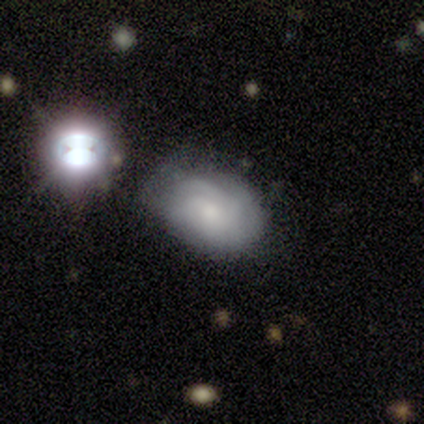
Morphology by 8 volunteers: smooth-or-featured: featured or disk: 62% | smooth: 25% | star or artifact: 12%
  disk-edge-on: no: 100% | yes: 0%
    bar: no: 80% | weak: 20% | strong: 0%
    has-spiral-arms: yes: 60% | no: 40%
      spiral-winding: tight: 67% | medium: 33% | loose: 0%
      spiral-arm-count: 3: 33% (tied) | 4: 33% (tied) | can't tell: 33% (tied) | 1: 0% | 2: 0% | more than 4: 0%
    bulge-size: moderate: 40% | large: 20% | small: 20% | none: 20% | dominant: 0%
  merging: minor disturbance: 43% | none: 29% | major disturbance: 29% | merger: 0%